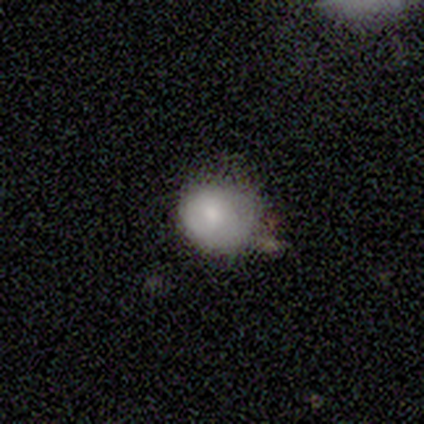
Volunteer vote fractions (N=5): Smooth or featured? smooth (80%)
How rounded? round (50%, tied with in between)
Merging? minor disturbance (75%)